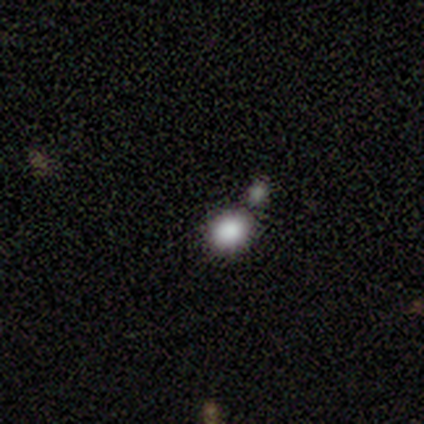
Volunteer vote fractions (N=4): Smooth or featured: smooth — 50% (tied with star or artifact — 50%)
How rounded: round — 100%
Merging: none — 100%